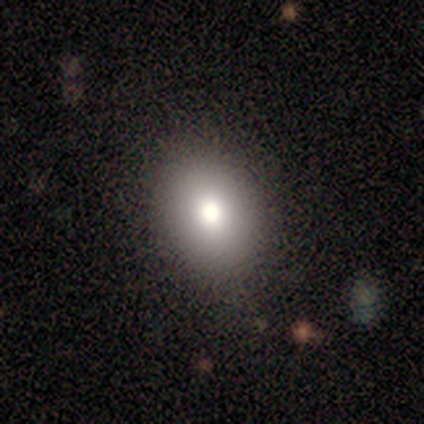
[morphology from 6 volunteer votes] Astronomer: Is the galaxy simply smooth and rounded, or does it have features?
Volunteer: smooth — 50% (runner-up: star or artifact, 33%).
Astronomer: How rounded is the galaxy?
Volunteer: in between — 100%.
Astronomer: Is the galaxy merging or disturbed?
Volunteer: none — 100%.